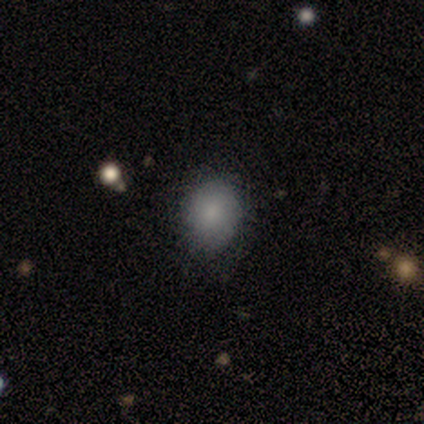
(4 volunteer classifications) smooth 100%, featured or disk 0%, star or artifact 0%. Down the decision tree: how rounded — round (50%, tied with in between); merging — none (100%).